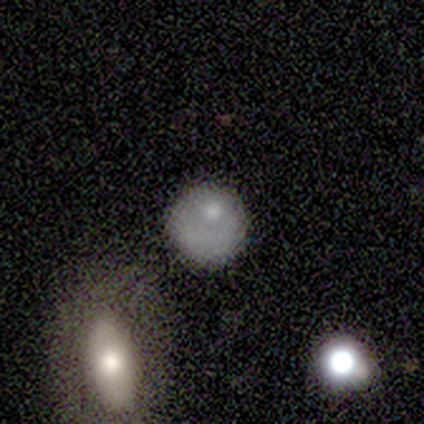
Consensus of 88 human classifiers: A smooth galaxy with no disk features (72%) that is round (81%). Merging: none (58%).